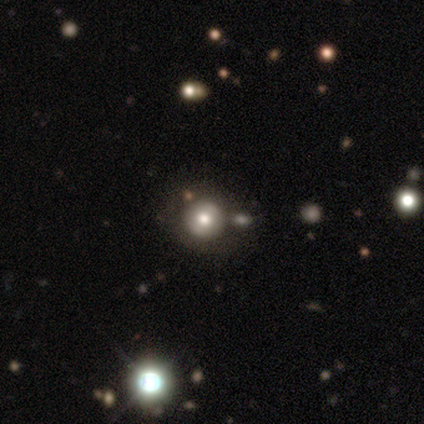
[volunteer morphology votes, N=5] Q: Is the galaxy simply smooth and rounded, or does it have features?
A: smooth — 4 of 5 (80%).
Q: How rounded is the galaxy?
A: round — 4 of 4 (100%).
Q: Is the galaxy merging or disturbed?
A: none — 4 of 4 (100%).